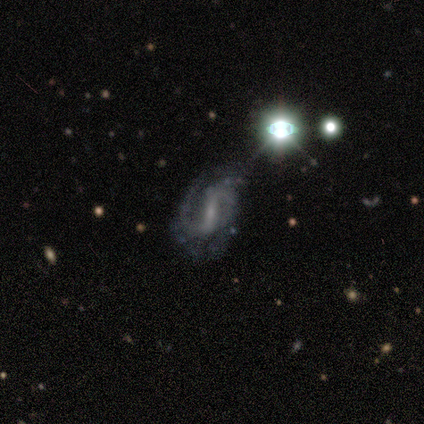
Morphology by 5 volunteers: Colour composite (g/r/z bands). It shows a featured or disk galaxy (80%) with no bar (50%), 2 (75%) loose (50%) spiral arms (100%) and a small central bulge (50%). Merging: none (80%).